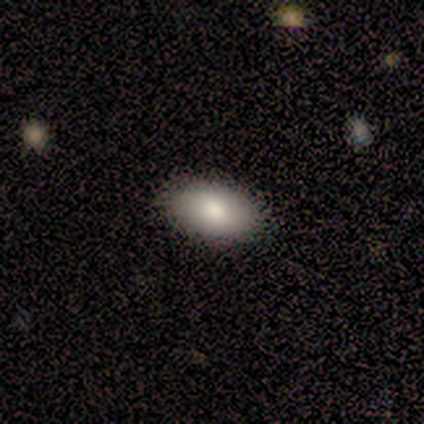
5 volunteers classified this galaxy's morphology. Smooth or featured?
  - smooth: 60% *
  - featured or disk: 20%
  - star or artifact: 20%
How rounded?
  - in between: 100% *
  - round: 0%
  - cigar-shaped: 0%
Merging?
  - none: 75% *
  - minor disturbance: 25%
  - major disturbance: 0%
  - merger: 0%